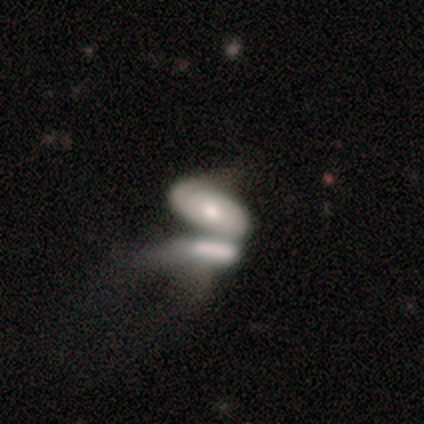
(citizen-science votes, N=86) A smooth galaxy with no disk features (52%) that is in between round and cigar-shaped (89%). Merging: merger (83%).